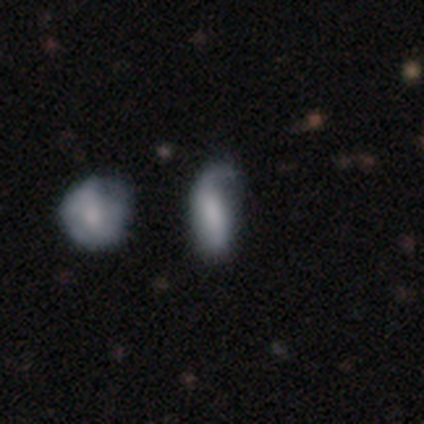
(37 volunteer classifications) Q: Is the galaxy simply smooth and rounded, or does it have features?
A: smooth — 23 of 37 (62%).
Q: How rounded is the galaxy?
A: in between — 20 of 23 (87%).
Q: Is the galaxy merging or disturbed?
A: none — 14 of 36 (39%).